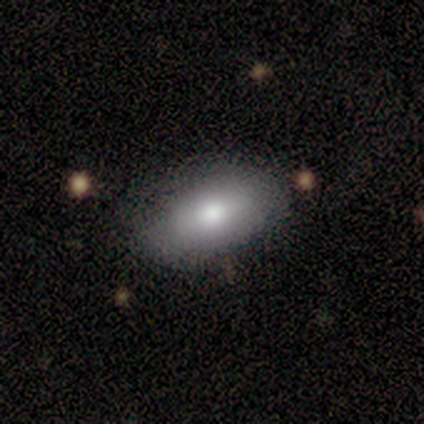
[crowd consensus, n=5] smooth-or-featured: smooth: 80% | featured or disk: 20% | star or artifact: 0%
  how-rounded: in between: 75% | cigar-shaped: 25% | round: 0%
  merging: none: 80% | minor disturbance: 20% | major disturbance: 0% | merger: 0%